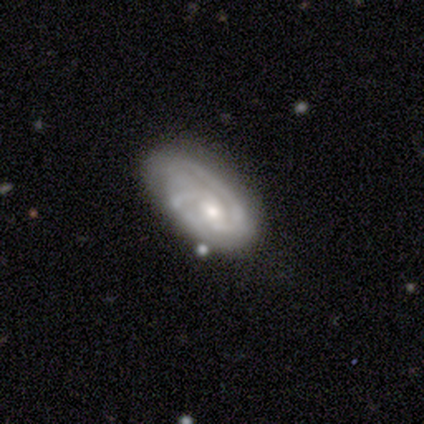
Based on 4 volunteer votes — A featured or disk galaxy (100%) with a weak bar (75%), 2 (75%) tight (50%, tied with medium) spiral arms (100%) and a large central bulge (50%, tied with moderate).

Vote fractions:
- Smooth or featured? featured or disk: 100% / smooth: 0% / star or artifact: 0%
- Edge-on disk? no: 100% / yes: 0%
- Bar? weak: 75% / no: 25% / strong: 0%
- Spiral arms? yes: 100% / no: 0%
- Spiral winding? tight: 50% (tied) / medium: 50% (tied) / loose: 0%
- Spiral arm count? 2: 75% / 1: 25% / 3: 0% / 4: 0% / more than 4: 0% / can't tell: 0%
- Bulge size? large: 50% (tied) / moderate: 50% (tied) / dominant: 0% / small: 0% / none: 0%
- Merging? none: 50% (tied) / minor disturbance: 50% (tied) / major disturbance: 0% / merger: 0%